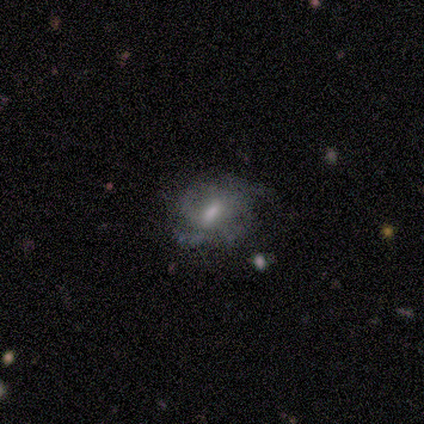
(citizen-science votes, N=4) featured or disk 100%, smooth 0%, star or artifact 0%. Down the decision tree: edge-on disk — no (100%); bar — weak (50%); spiral arms — yes (100%); spiral arm count — 2 (50%, tied with can't tell); spiral winding — medium (100%); bulge size — moderate (50%); merging — major disturbance (50%).